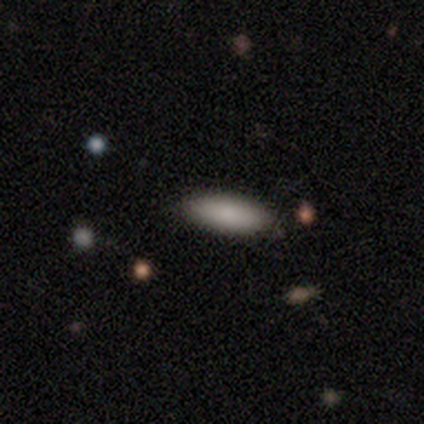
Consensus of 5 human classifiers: Morphology: type=smooth (100%); roundness=in between (80%); merging=none (100%).